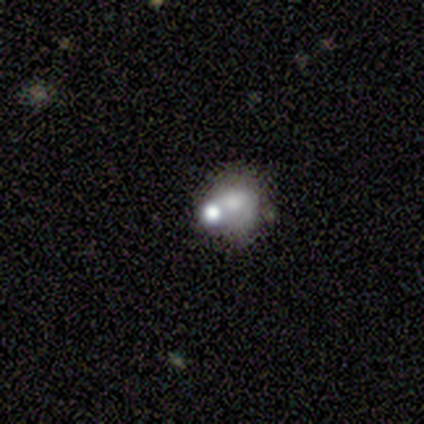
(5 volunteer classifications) This is marginally a featured or disk galaxy (40%, tied with star or artifact). It is clearly not viewed edge-on (100%). Bar: clearly no (100%). Spiral arm pattern: clearly no (100%). Central bulge: possibly small (50%, tied with none). Merging: clearly none (100%).